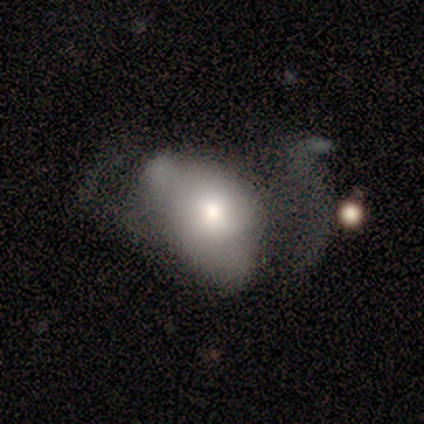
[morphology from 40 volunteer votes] Overall: smooth (55%; featured or disk 42%). How rounded: in between (77%). Merging: major disturbance (64%).